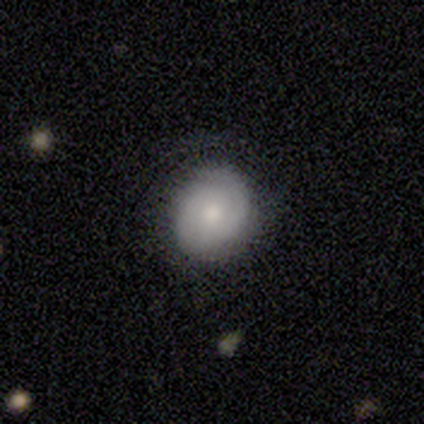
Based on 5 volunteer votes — Smooth or featured? 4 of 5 (80%) said featured or disk. Edge-on disk? 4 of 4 (100%) said no. Bar? 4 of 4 (100%) said no. Spiral arms? 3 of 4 (75%) said yes. Spiral winding? 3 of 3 (100%) said tight. Spiral arm count? 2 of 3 (67%) said 1. Bulge size? 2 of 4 (50%, tied with small) said moderate. Merging? 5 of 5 (100%) said none.